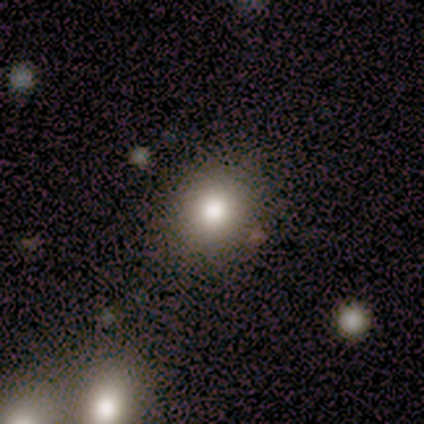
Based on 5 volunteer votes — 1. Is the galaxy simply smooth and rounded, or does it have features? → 100% smooth, 0% featured or disk, 0% star or artifact.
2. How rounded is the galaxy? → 80% round, 20% in between, 0% cigar-shaped.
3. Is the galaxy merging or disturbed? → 100% none, 0% minor disturbance, 0% major disturbance, 0% merger.